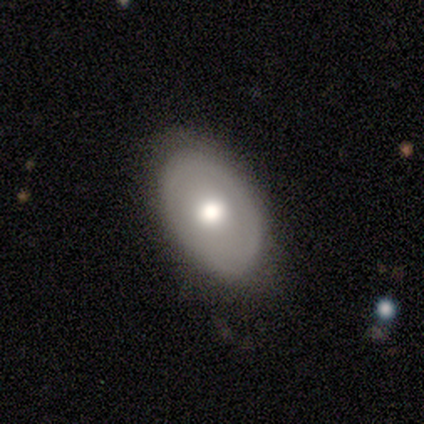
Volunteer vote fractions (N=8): Smooth or featured?
  - smooth: 50% * (tied)
  - featured or disk: 50% * (tied)
  - star or artifact: 0%
How rounded?
  - in between: 100% *
  - round: 0%
  - cigar-shaped: 0%
Merging?
  - none: 75% *
  - minor disturbance: 25%
  - major disturbance: 0%
  - merger: 0%